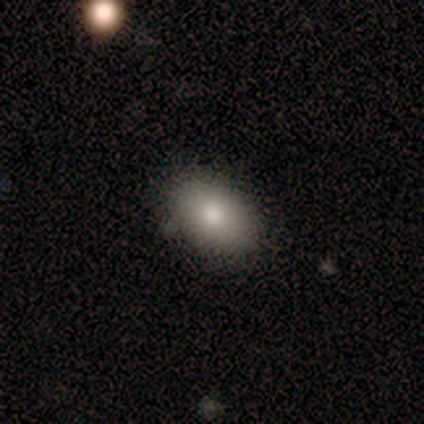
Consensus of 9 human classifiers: This appears to be a smooth galaxy with no disk features (78%) that is in between round and cigar-shaped (86%). Merging: none (89%).